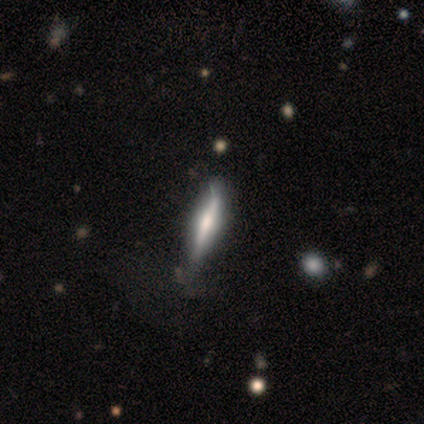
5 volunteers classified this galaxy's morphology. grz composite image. It shows a featured or disk galaxy (60%) viewed edge-on (100%) with a rounded central bulge (67%). Merging: none (50%, tied with minor disturbance).